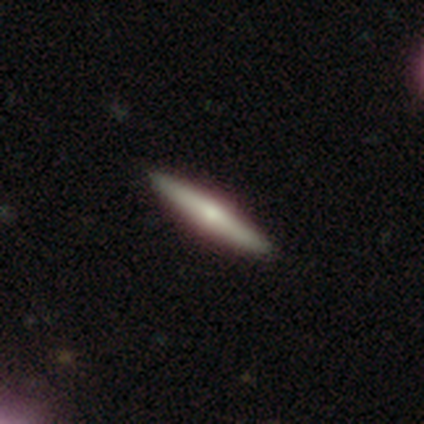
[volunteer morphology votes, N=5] This is likely a featured or disk galaxy (60%). It is clearly viewed edge-on (100%). Edge-on bulge: clearly rounded (100%). Merging: clearly none (100%).